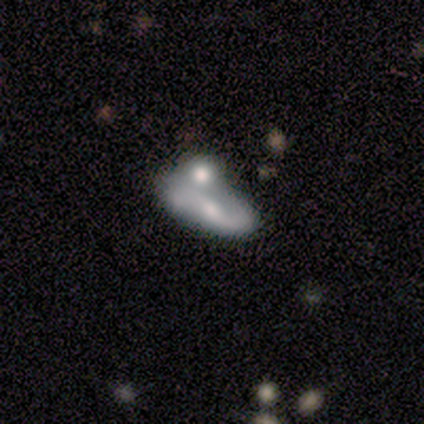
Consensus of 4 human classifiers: This is possibly a featured or disk galaxy (50%). It is clearly not viewed edge-on (100%). Bar: possibly strong (50%, tied with no). Spiral arm pattern: clearly yes (100%). Spiral arm count: clearly 2 (100%). Spiral winding: clearly loose (100%). Central bulge: clearly moderate (100%). Merging: likely none (67%).